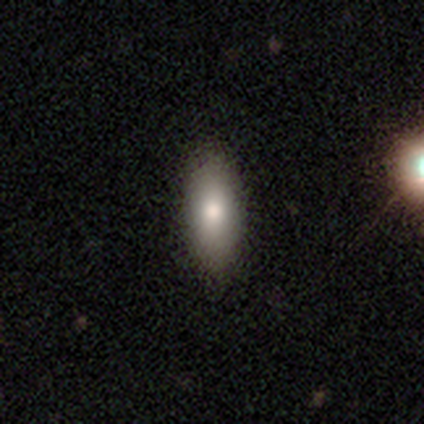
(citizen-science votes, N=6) Q: Smooth or featured?
A: smooth (100%)
Q: How rounded?
A: in between (100%)
Q: Merging?
A: none (50%); tied with: minor disturbance (50%)